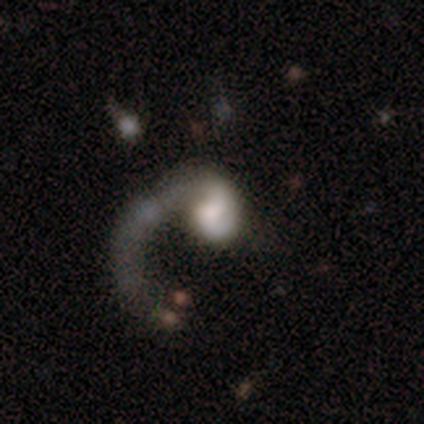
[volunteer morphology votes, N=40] Volunteers were most divided on "bulge size": large: 26%, small: 22%, moderate: 19%, none: 19%, dominant: 15%. More confident: edge-on disk — no (100%); spiral arm count — 1 (86%); bar — no (81%); spiral winding — loose (81%); spiral arms — yes (78%); smooth or featured — featured or disk (68%); merging — major disturbance (54%).